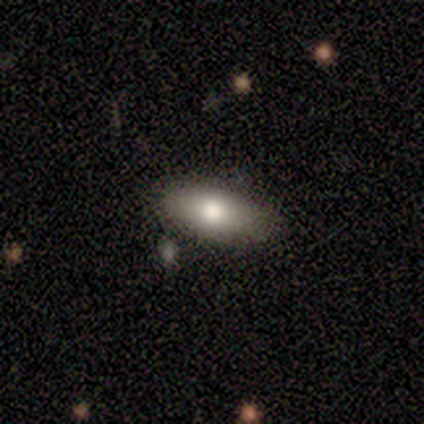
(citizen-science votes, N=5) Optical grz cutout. It shows a smooth galaxy with no disk features (60%) that is in between round and cigar-shaped (100%). Merging: none (75%).